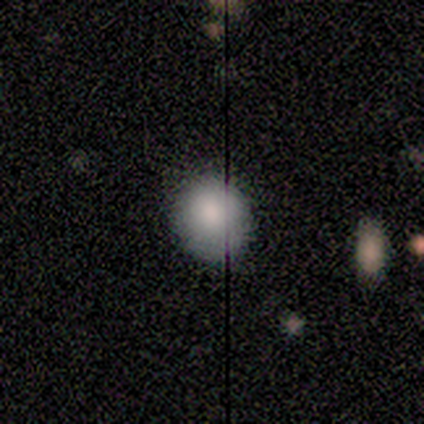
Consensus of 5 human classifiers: Smooth or featured: smooth — 80% (featured or disk — 20%)
How rounded: round — 75% (cigar-shaped — 25%)
Merging: none — 60% (minor disturbance — 40%)